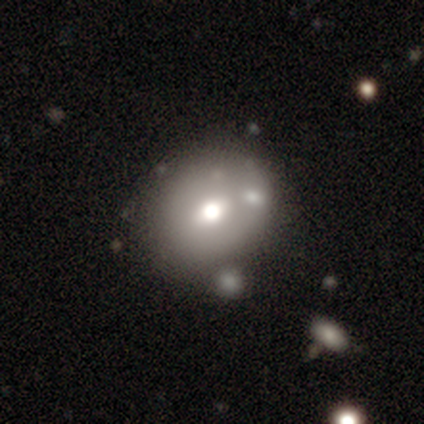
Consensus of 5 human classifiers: smooth-or-featured: smooth: 80% | star or artifact: 20% | featured or disk: 0%
  how-rounded: round: 75% | in between: 25% | cigar-shaped: 0%
  merging: none: 100% | minor disturbance: 0% | major disturbance: 0% | merger: 0%